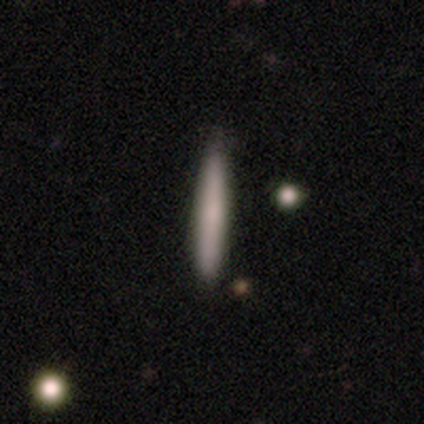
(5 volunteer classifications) Overall: smooth (100%). How rounded: cigar-shaped (100%). Merging: none (100%).